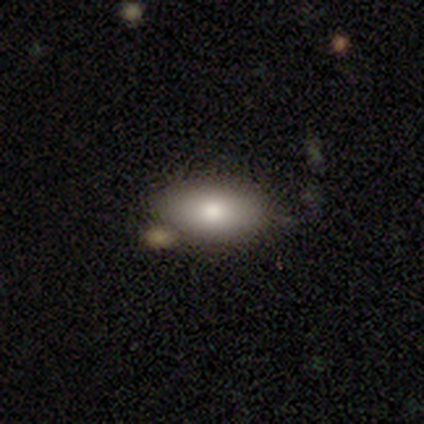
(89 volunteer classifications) Smooth or featured? smooth (85%)
How rounded? in between (97%)
Merging? none (72%)